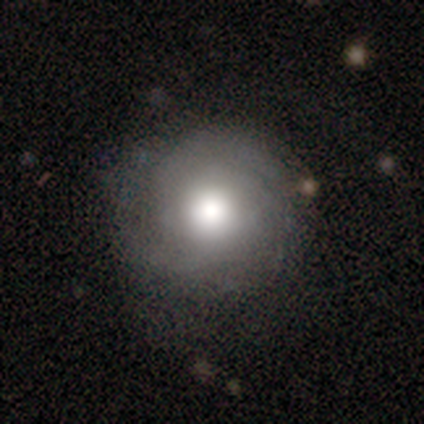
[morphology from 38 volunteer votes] A featured or disk galaxy (53%) with no bar (95%), tight (82%) spiral arms (85%) and a large central bulge (60%). Merging: none (80%).